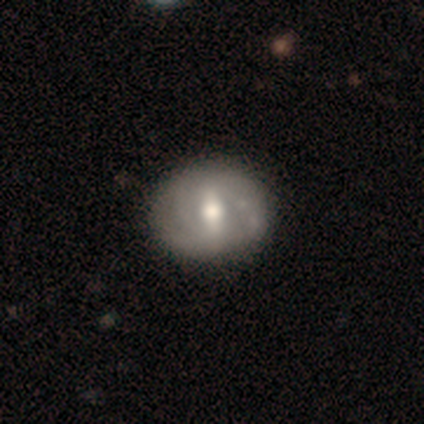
featured or disk 60%, smooth 40%, star or artifact 0%. Down the decision tree: edge-on disk — no (100%); bar — weak (67%); spiral arms — yes (100%); spiral arm count — 2 (33%, tied with 3 and 4); spiral winding — tight (67%); bulge size — moderate (100%); merging — none (100%).